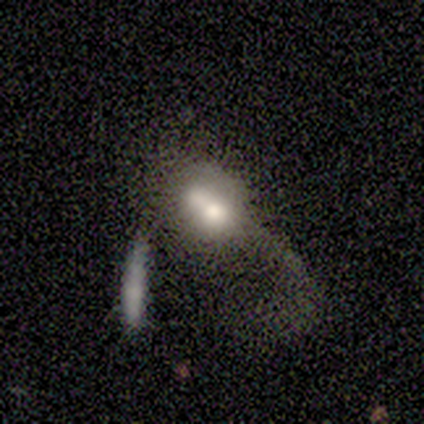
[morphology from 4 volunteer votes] type=smooth (50%); roundness=in between (100%); merging=merger (67%).